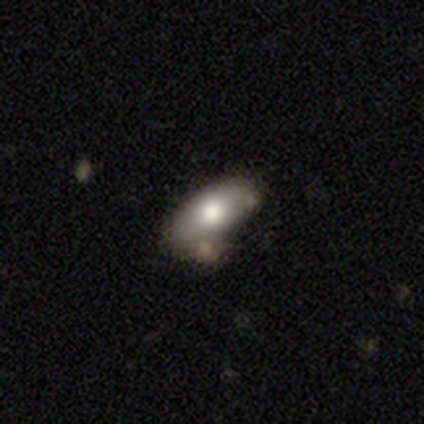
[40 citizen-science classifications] smooth-or-featured: smooth: 60% | featured or disk: 32% | star or artifact: 8%
  how-rounded: in between: 96% | cigar-shaped: 4% | round: 0%
  merging: none: 57% | minor disturbance: 24% | merger: 14% | major disturbance: 5%